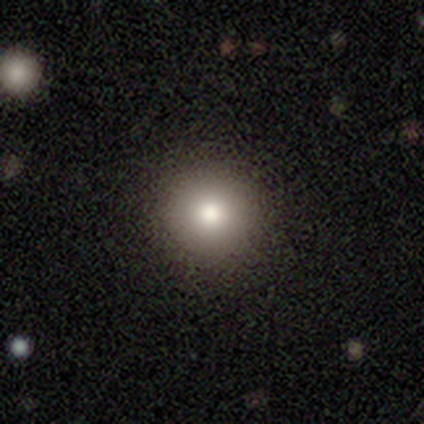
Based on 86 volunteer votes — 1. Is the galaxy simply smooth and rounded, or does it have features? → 85% smooth, 9% star or artifact, 6% featured or disk.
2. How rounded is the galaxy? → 95% round, 3% in between, 3% cigar-shaped.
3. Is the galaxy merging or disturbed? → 97% none, 1% minor disturbance, 1% major disturbance, 0% merger.